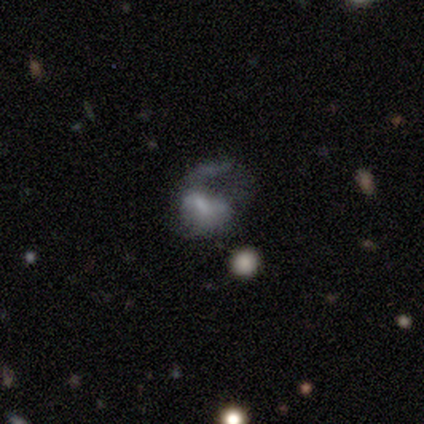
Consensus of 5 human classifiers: Smooth or featured? 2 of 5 (40%, tied with featured or disk) said smooth. How rounded? 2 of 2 (100%) said in between. Merging? 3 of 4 (75%) said major disturbance.